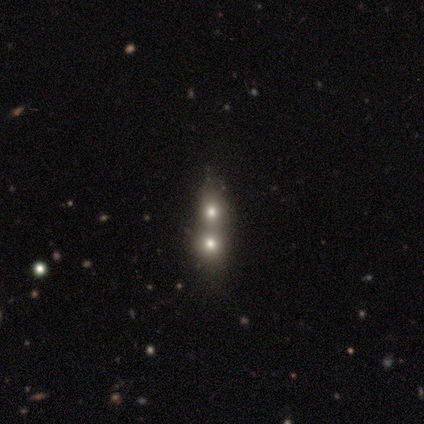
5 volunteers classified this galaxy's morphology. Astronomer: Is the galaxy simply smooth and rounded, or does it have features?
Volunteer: smooth — 40%, tied with star or artifact at 40%.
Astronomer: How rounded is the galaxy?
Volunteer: round — 50%, tied with in between at 50%.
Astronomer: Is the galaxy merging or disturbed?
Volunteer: merger — 100%.